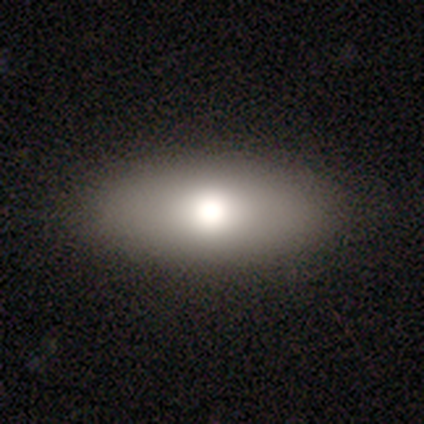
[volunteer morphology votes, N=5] Q: Smooth or featured?
A: smooth (60%); runner-up: featured or disk (20%)
Q: How rounded?
A: in between (100%)
Q: Merging?
A: none (100%)